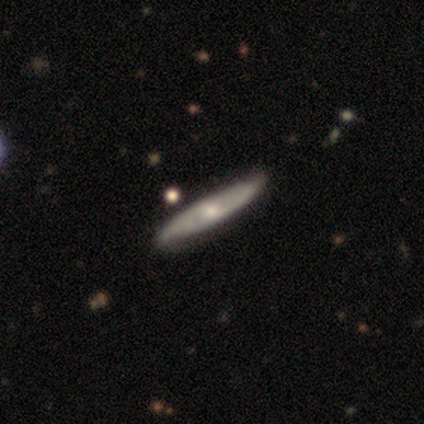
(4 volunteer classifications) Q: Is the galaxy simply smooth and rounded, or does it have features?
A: featured or disk — 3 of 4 (75%).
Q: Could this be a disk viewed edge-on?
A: yes — 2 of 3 (67%).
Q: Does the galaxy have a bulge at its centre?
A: none — 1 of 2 (50%, tied with rounded).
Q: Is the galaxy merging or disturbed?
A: none — 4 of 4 (100%).